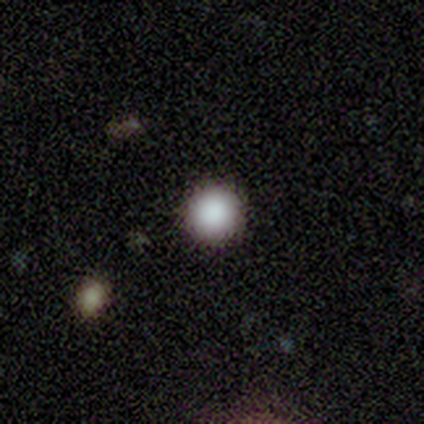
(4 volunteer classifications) Smooth or featured? 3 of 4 (75%) said smooth. How rounded? 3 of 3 (100%) said round. Merging? 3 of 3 (100%) said none.